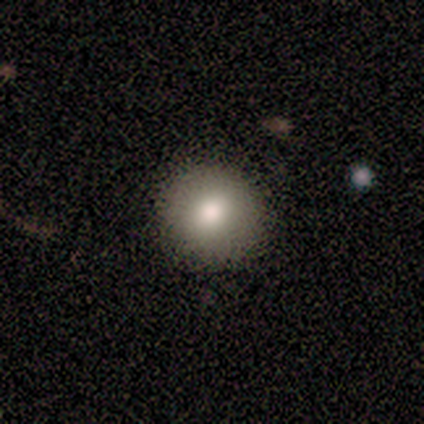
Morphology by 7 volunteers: Q: Smooth or featured?
A: smooth (86%); runner-up: featured or disk (14%)
Q: How rounded?
A: round (100%)
Q: Merging?
A: none (100%)